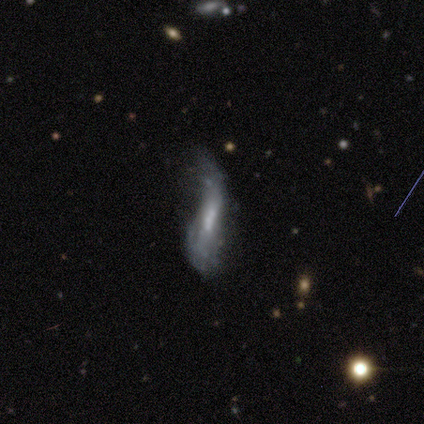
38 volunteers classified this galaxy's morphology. This is likely a featured or disk galaxy (68%). It is likely not viewed edge-on (73%). Bar: marginally strong (37%). Spiral arm pattern: likely yes (63%). Spiral arm count: likely 2 (67%). Spiral winding: clearly loose (83%). Central bulge: possibly moderate (53%). Merging: marginally major disturbance (43%).